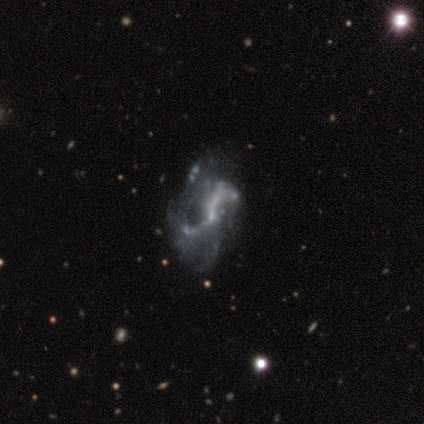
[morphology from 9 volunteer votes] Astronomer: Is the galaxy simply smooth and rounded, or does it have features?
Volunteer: featured or disk — 100%.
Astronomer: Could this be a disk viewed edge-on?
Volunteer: no — 100%.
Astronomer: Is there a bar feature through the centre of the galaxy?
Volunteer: no — 67%.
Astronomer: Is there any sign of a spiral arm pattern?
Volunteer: yes — 67%.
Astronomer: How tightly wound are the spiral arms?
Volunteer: loose — 67%.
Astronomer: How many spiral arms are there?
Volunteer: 2 — 100%.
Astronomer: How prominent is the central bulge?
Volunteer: small — 78%.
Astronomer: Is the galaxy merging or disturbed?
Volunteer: major disturbance — 78%.